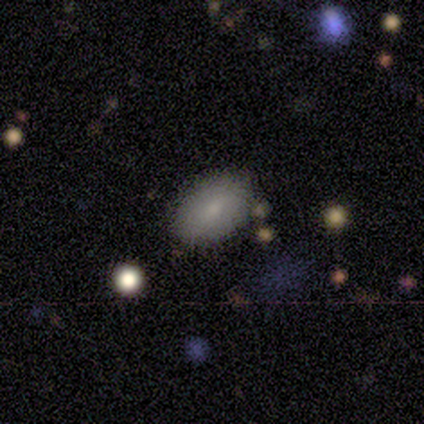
Volunteers were most divided on "smooth or featured": smooth: 75%, featured or disk: 25%, star or artifact: 0%. More confident: how rounded — in between (100%); merging — none (100%).